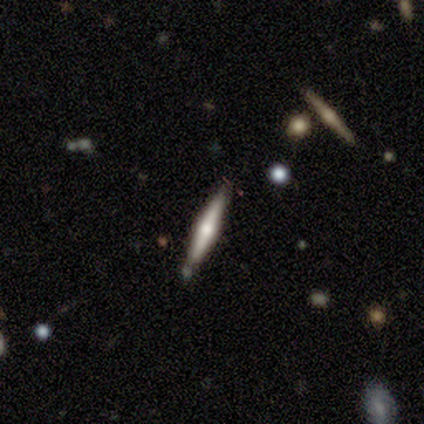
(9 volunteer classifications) Smooth or featured: featured or disk — 78% (smooth — 22%)
Edge-on disk: yes — 100%
Edge-on bulge: rounded — 86% (none — 14%)
Merging: none — 67% (minor disturbance — 33%)